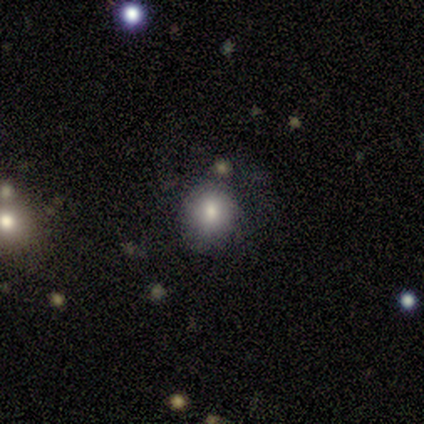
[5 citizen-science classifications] Morphology: type=smooth (60%); roundness=round (67%); merging=none (100%).